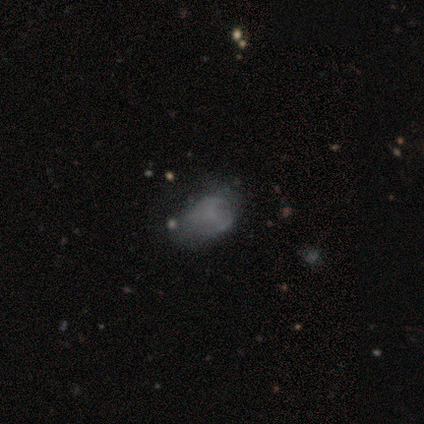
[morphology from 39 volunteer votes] A featured or disk galaxy (51%) with no bar (70%), no spiral arms (65%) and no central bulge (70%).

Vote fractions:
- Smooth or featured? featured or disk: 51% / smooth: 44% / star or artifact: 5%
- Edge-on disk? no: 100% / yes: 0%
- Bar? no: 70% / weak: 30% / strong: 0%
- Spiral arms? no: 65% / yes: 35%
- Bulge size? none: 70% / small: 20% / dominant: 5% / moderate: 5% / large: 0%
- Merging? none: 35% / minor disturbance: 30% / major disturbance: 16% / merger: 3%